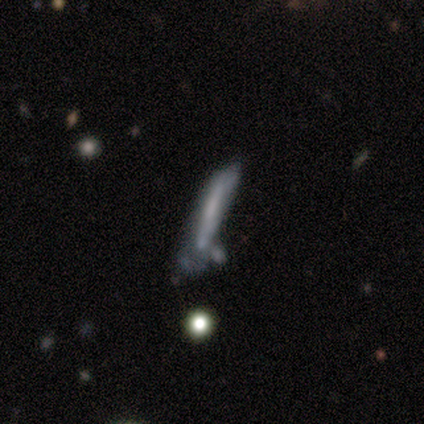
smooth-or-featured: smooth: 50% | featured or disk: 43% | star or artifact: 7%
  how-rounded: cigar-shaped: 100% | round: 0% | in between: 0%
  merging: minor disturbance: 38% | major disturbance: 31% | none: 23% | merger: 8%